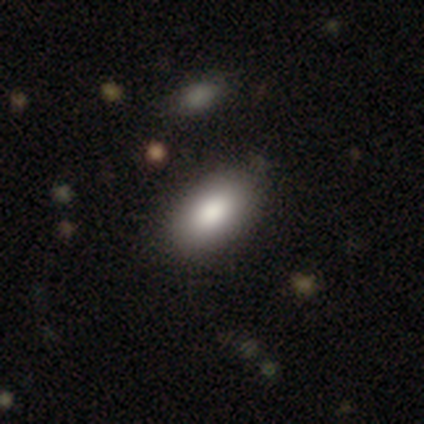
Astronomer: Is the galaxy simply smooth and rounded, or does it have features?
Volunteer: smooth — 100%.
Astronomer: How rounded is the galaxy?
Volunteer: in between — 100%.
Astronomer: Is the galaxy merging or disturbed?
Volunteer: none — 100%.